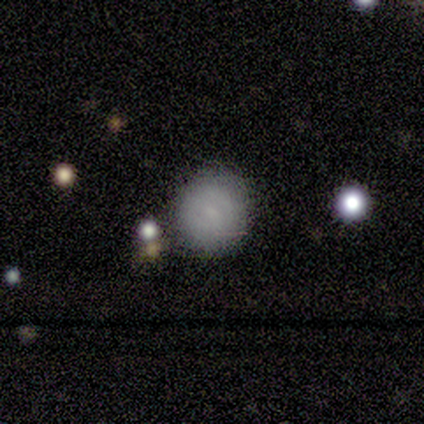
smooth_or_featured: featured or disk (p=0.60) [alt: smooth p=0.40]
disk_edge_on: no (p=1.00)
bar: strong (p=0.33) [tied with: weak p=0.33, no p=0.33]
has_spiral_arms: yes (p=0.67) [alt: no p=0.33]
spiral_winding: medium (p=1.00)
spiral_arm_count: 2 (p=1.00)
bulge_size: small (p=0.67) [alt: moderate p=0.33]
merging: none (p=0.80) [alt: major disturbance p=0.20]